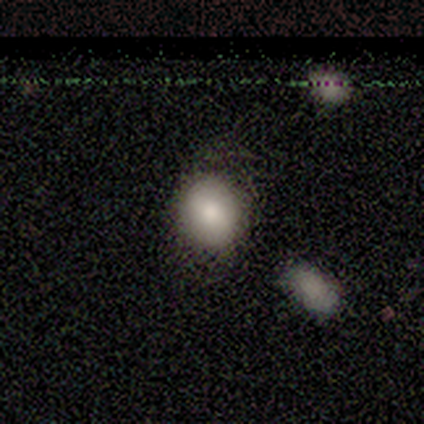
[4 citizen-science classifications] Morphology: type=smooth (75%); roundness=round (67%); merging=none (33%, tied with minor disturbance and major disturbance).